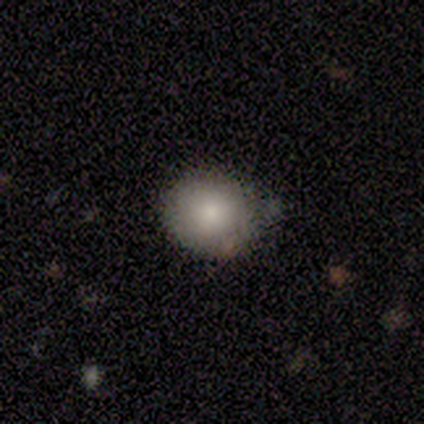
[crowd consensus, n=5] smooth 80%, star or artifact 20%, featured or disk 0%. Down the decision tree: how rounded — round (75%); merging — none (50%, tied with minor disturbance).